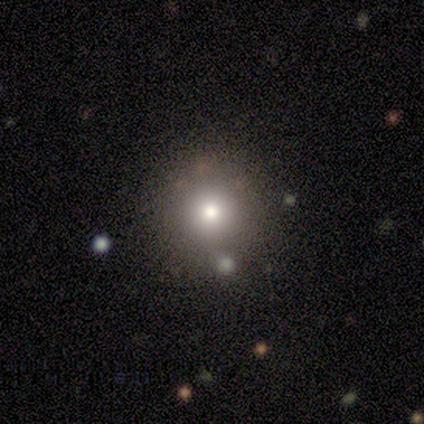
This appears to be a smooth galaxy with no disk features (80%) that is round (100%). Merging: none (75%).